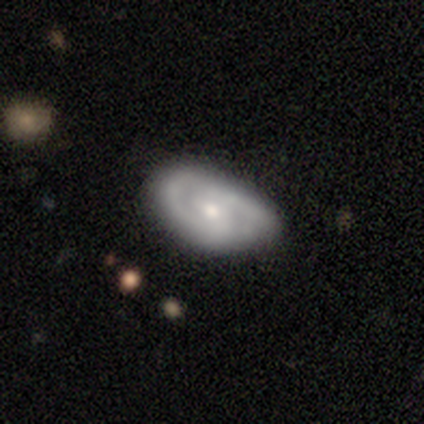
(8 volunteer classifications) Smooth or featured?
  - featured or disk: 75% *
  - smooth: 25%
  - star or artifact: 0%
Edge-on disk?
  - no: 100% *
  - yes: 0%
Bar?
  - weak: 50% * (tied)
  - no: 50% * (tied)
  - strong: 0%
Spiral arms?
  - yes: 100% *
  - no: 0%
Spiral winding?
  - medium: 67% *
  - tight: 17%
  - loose: 17%
Spiral arm count?
  - 2: 83% *
  - can't tell: 17%
  - 1: 0%
  - 3: 0%
  - 4: 0%
  - more than 4: 0%
Bulge size?
  - small: 67% *
  - moderate: 33%
  - dominant: 0%
  - large: 0%
  - none: 0%
Merging?
  - none: 62% *
  - minor disturbance: 38%
  - major disturbance: 0%
  - merger: 0%